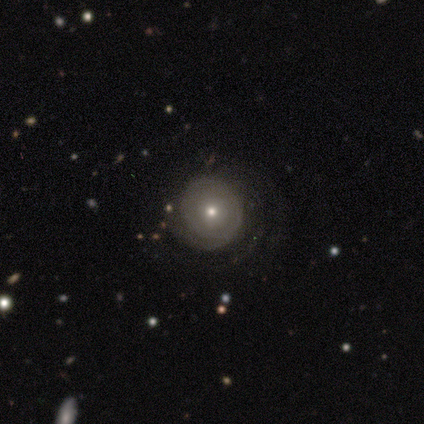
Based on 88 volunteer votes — featured or disk 60%, smooth 30%, star or artifact 10%. Down the decision tree: edge-on disk — no (100%); bar — no (94%); spiral arms — yes (72%); spiral arm count — can't tell (55%); spiral winding — tight (87%); bulge size — small (60%); merging — none (75%).